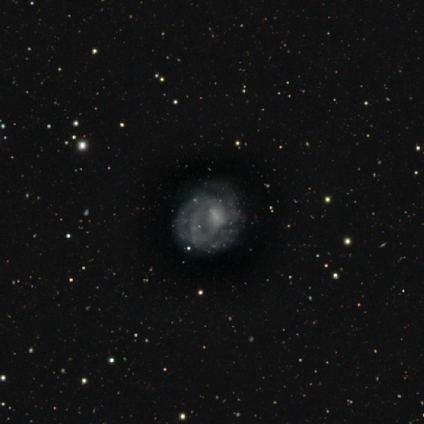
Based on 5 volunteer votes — A smooth galaxy with no disk features (40%, tied with featured or disk) that is round (100%).

Vote fractions:
- Smooth or featured? smooth: 40% (tied) / featured or disk: 40% (tied) / star or artifact: 20%
- How rounded? round: 100% / in between: 0% / cigar-shaped: 0%
- Merging? major disturbance: 50% / none: 25% / minor disturbance: 25% / merger: 0%